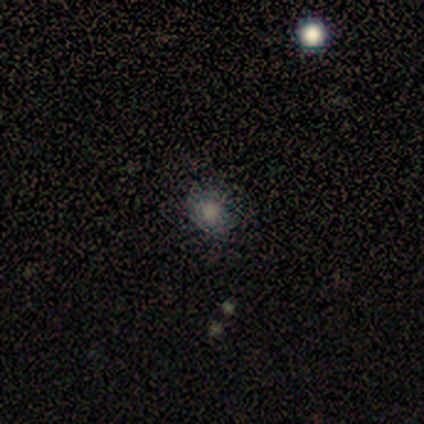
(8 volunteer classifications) This is clearly a smooth galaxy (88%). How rounded: clearly round (86%). Merging: clearly none (86%).